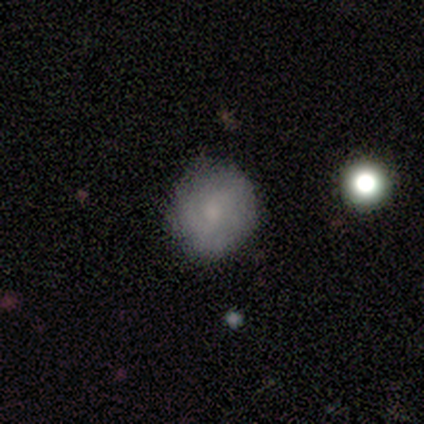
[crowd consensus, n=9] Smooth or featured: smooth — 78% (featured or disk — 22%)
How rounded: round — 86% (in between — 14%)
Merging: none — 78% (minor disturbance — 11%)